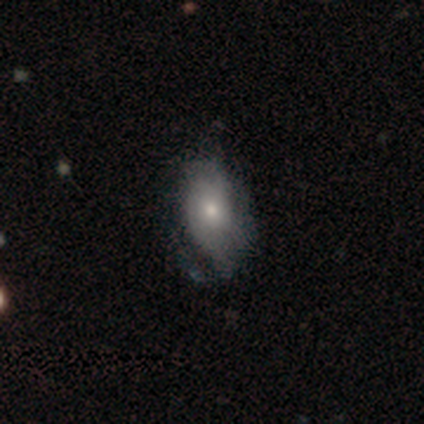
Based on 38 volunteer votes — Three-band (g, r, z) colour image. It shows a smooth galaxy with no disk features (47%) that is in between round and cigar-shaped (94%). Merging: minor disturbance (47%).